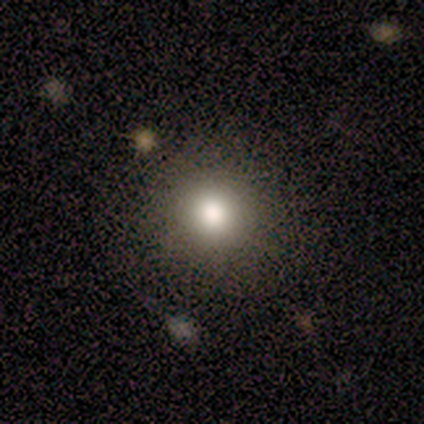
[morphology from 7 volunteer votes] Smooth or featured? 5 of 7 (71%) said smooth. How rounded? 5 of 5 (100%) said round. Merging? 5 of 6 (83%) said none.